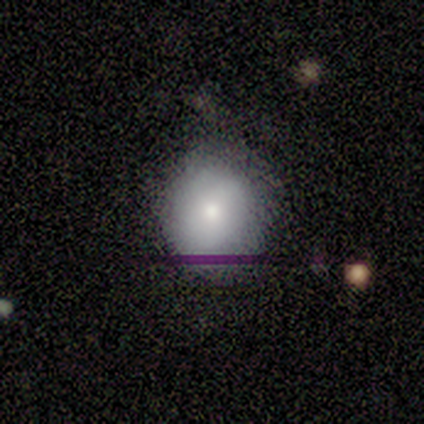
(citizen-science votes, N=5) Smooth or featured?
  - smooth: 80% *
  - star or artifact: 20%
  - featured or disk: 0%
How rounded?
  - round: 75% *
  - in between: 25%
  - cigar-shaped: 0%
Merging?
  - none: 75% *
  - minor disturbance: 25%
  - major disturbance: 0%
  - merger: 0%